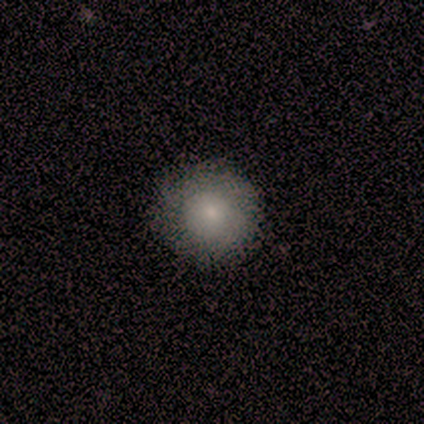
Smooth or featured?
  - smooth: 75% *
  - featured or disk: 25%
  - star or artifact: 0%
How rounded?
  - round: 100% *
  - in between: 0%
  - cigar-shaped: 0%
Merging?
  - none: 100% *
  - minor disturbance: 0%
  - major disturbance: 0%
  - merger: 0%